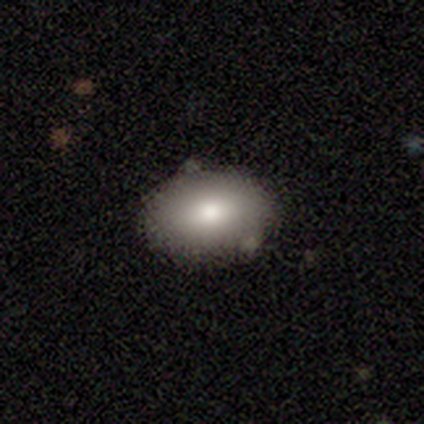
This appears to be a smooth galaxy with no disk features (80%) that is in between round and cigar-shaped (75%). Merging: none (100%).